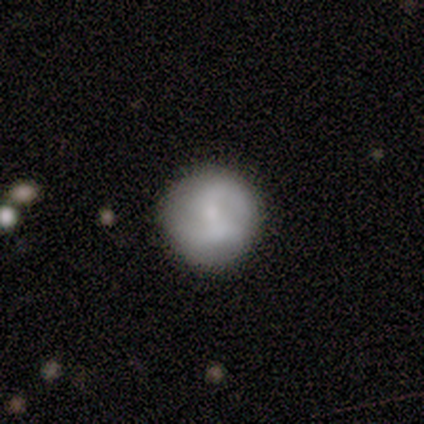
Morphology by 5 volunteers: This is likely a smooth galaxy (60%). How rounded: clearly round (100%). Merging: likely none (75%).